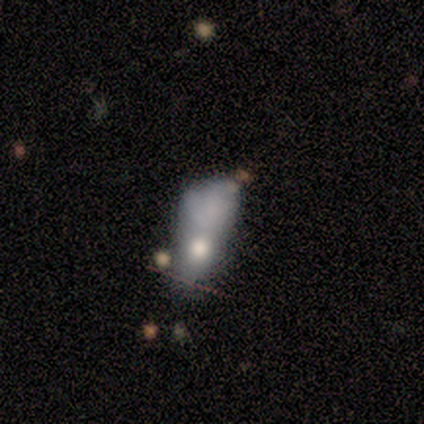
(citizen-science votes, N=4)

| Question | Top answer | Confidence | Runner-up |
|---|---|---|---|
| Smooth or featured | featured or disk | 75% | smooth (25%) |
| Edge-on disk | no | 100% | — |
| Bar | no | 100% | — |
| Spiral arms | no | 100% | — |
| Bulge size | moderate | 100% | — |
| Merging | major disturbance | 50% | tied: merger (50%) |